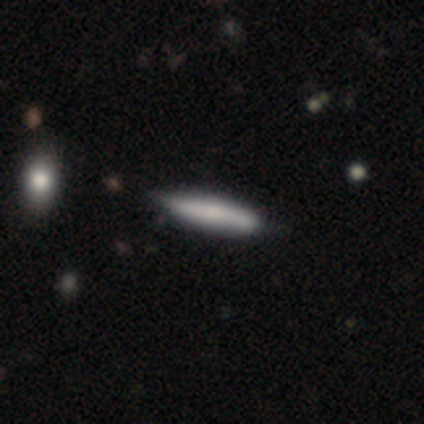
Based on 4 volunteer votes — Morphology: type=smooth (75%); roundness=cigar-shaped (100%); merging=none (75%).